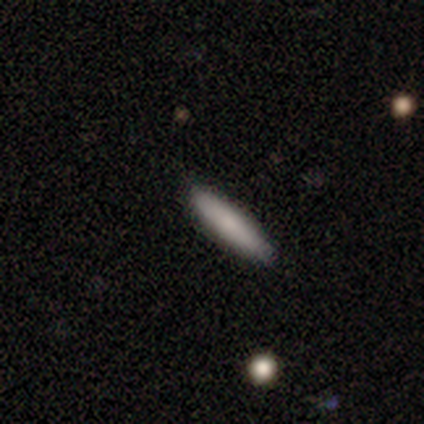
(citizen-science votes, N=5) A smooth galaxy with no disk features (60%) that is cigar-shaped (100%). Merging: none (75%).